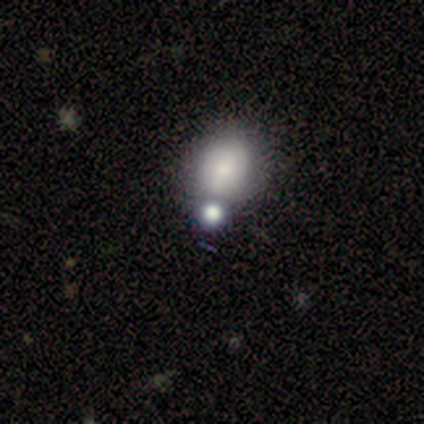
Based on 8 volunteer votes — smooth-or-featured: smooth: 88% | featured or disk: 12% | star or artifact: 0%
  how-rounded: round: 86% | in between: 14% | cigar-shaped: 0%
  merging: none: 75% | major disturbance: 12% | merger: 12% | minor disturbance: 0%